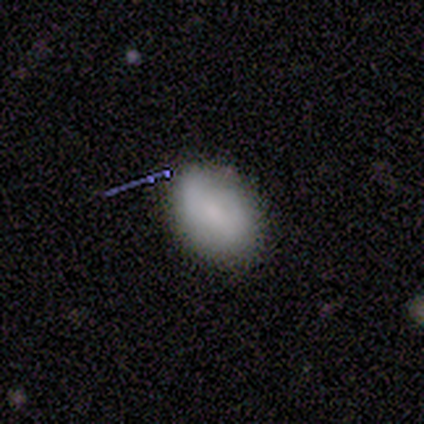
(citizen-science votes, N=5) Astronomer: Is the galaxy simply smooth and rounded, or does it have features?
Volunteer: smooth — 80%.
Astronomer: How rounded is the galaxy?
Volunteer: in between — 100%.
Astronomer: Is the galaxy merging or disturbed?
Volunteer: none — 100%.